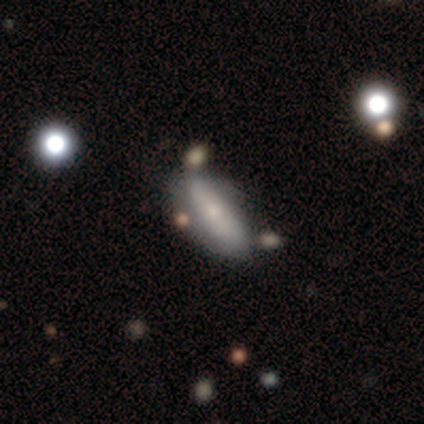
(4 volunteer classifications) This appears to be a featured or disk galaxy (75%) with no bar (100%), 2 (50%, tied with can't tell) tight (50%, tied with loose) spiral arms (100%) and a small central bulge (50%, tied with none). Merging: none (50%, tied with minor disturbance).